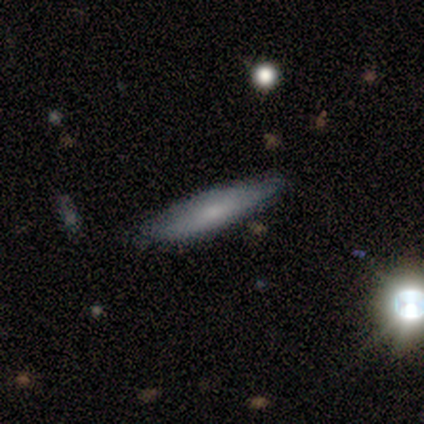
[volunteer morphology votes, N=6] Smooth or featured? 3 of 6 (50%, tied with featured or disk) said smooth. How rounded? 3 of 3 (100%) said cigar-shaped. Merging? 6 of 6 (100%) said none.